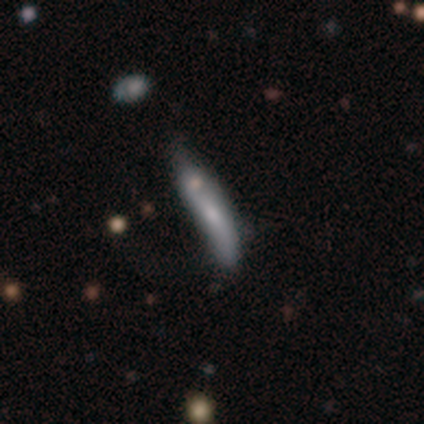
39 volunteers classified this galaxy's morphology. type=smooth (56%); roundness=cigar-shaped (86%); merging=minor disturbance (42%).